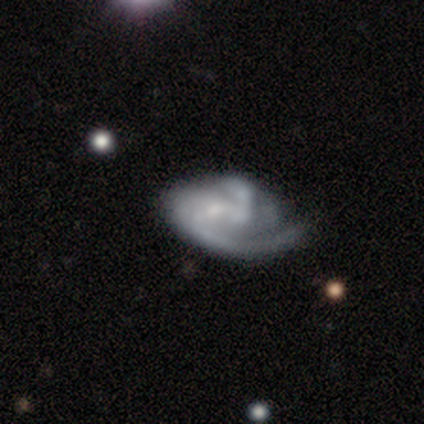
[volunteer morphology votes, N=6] A featured or disk galaxy (83%) with no bar (100%), 3 (40%, tied with can't tell) tight (60%) spiral arms (100%) and a small central bulge (80%).

Vote fractions:
- Smooth or featured? featured or disk: 83% / smooth: 17% / star or artifact: 0%
- Edge-on disk? no: 100% / yes: 0%
- Bar? no: 100% / strong: 0% / weak: 0%
- Spiral arms? yes: 100% / no: 0%
- Spiral winding? tight: 60% / medium: 20% / loose: 20%
- Spiral arm count? 3: 40% (tied) / can't tell: 40% (tied) / 2: 20% / 1: 0% / 4: 0% / more than 4: 0%
- Bulge size? small: 80% / moderate: 20% / dominant: 0% / large: 0% / none: 0%
- Merging? major disturbance: 67% / none: 33% / minor disturbance: 0% / merger: 0%